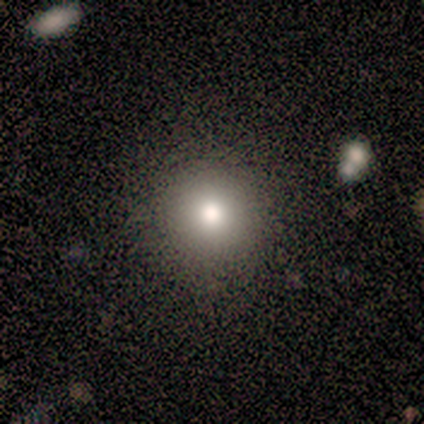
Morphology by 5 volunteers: Smooth or featured: smooth — 80% (star or artifact — 20%)
How rounded: round — 100%
Merging: none — 100%